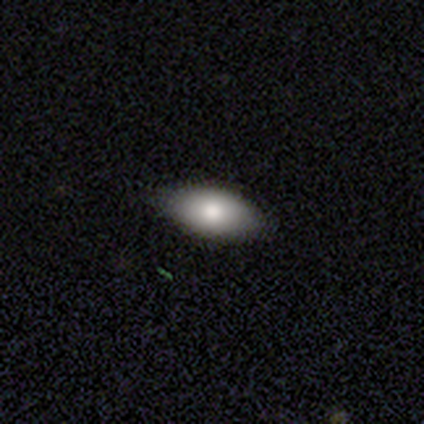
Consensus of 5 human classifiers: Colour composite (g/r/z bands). It shows a smooth galaxy with no disk features (100%) that is in between round and cigar-shaped (100%). Merging: none (100%).